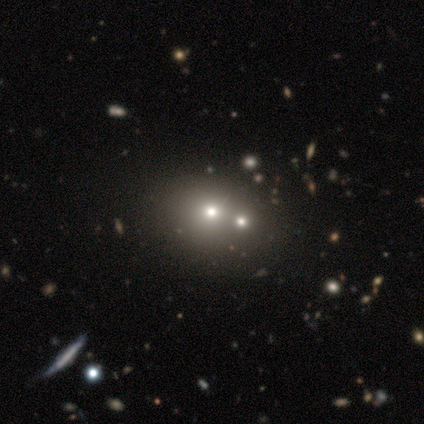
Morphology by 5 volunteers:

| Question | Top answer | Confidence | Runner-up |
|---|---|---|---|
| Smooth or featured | featured or disk | 40% | tied: star or artifact (40%) |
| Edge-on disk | no | 100% | — |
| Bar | no | 100% | — |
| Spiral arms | no | 100% | — |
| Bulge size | moderate | 100% | — |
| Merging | none | 67% | merger (33%) |